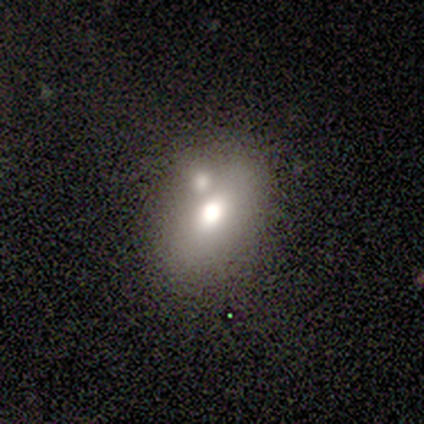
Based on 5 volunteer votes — Smooth or featured? 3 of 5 (60%) said smooth. How rounded? 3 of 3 (100%) said in between. Merging? 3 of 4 (75%) said none.